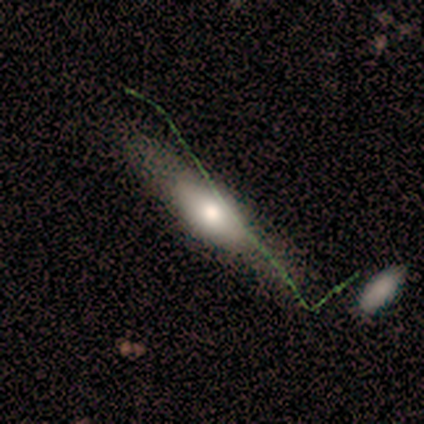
Smooth or featured?
  - featured or disk: 100% *
  - smooth: 0%
  - star or artifact: 0%
Edge-on disk?
  - yes: 80% *
  - no: 20%
Edge-on bulge?
  - rounded: 50% *
  - boxy: 25%
  - none: 25%
Merging?
  - none: 80% *
  - minor disturbance: 20%
  - major disturbance: 0%
  - merger: 0%